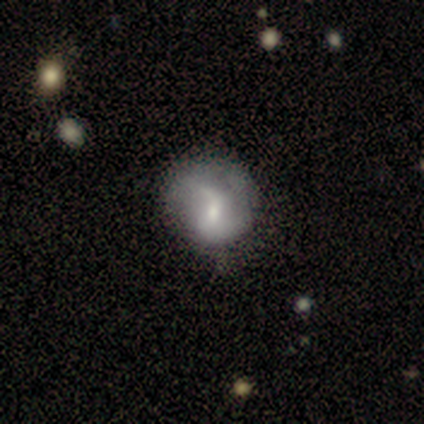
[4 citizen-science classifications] smooth 75%, featured or disk 25%, star or artifact 0%. Down the decision tree: how rounded — round (67%); merging — none (50%).